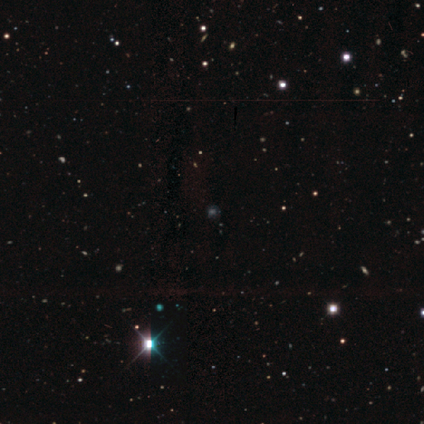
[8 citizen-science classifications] Smooth or featured?
  - star or artifact: 75% *
  - smooth: 12%
  - featured or disk: 12%